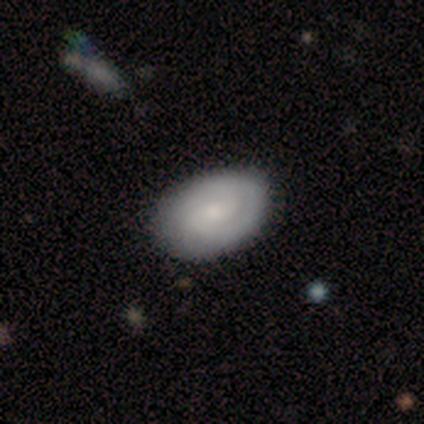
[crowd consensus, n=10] A featured or disk galaxy (50%) with a weak bar (60%), 2 (80%) medium (60%) spiral arms (100%) and a small central bulge (40%).

Vote fractions:
- Smooth or featured? featured or disk: 50% / smooth: 40% / star or artifact: 10%
- Edge-on disk? no: 100% / yes: 0%
- Bar? weak: 60% / strong: 20% / no: 20%
- Spiral arms? yes: 100% / no: 0%
- Spiral winding? medium: 60% / tight: 40% / loose: 0%
- Spiral arm count? 2: 80% / can't tell: 20% / 1: 0% / 3: 0% / 4: 0% / more than 4: 0%
- Bulge size? small: 40% / dominant: 20% / large: 20% / moderate: 20% / none: 0%
- Merging? none: 89% / major disturbance: 11% / minor disturbance: 0% / merger: 0%